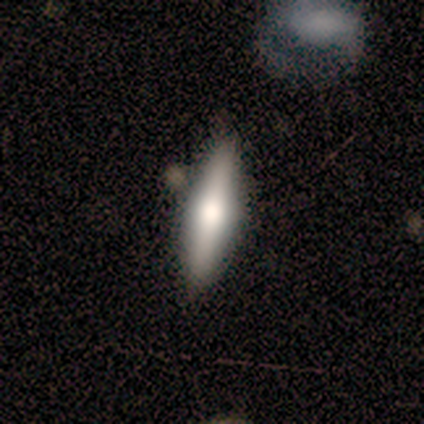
Volunteers were most divided on "how rounded" (2-way tie): in between: 50%, cigar-shaped: 50%, round: 0%. More confident: smooth or featured — smooth (80%); merging — none (60%).